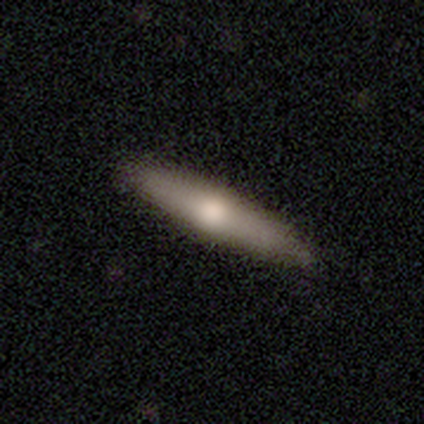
Q: Smooth or featured?
A: featured or disk (63%); runner-up: smooth (37%)
Q: Edge-on disk?
A: yes (88%); runner-up: no (12%)
Q: Edge-on bulge?
A: rounded (90%); runner-up: none (10%)
Q: Merging?
A: none (66%); runner-up: minor disturbance (13%)